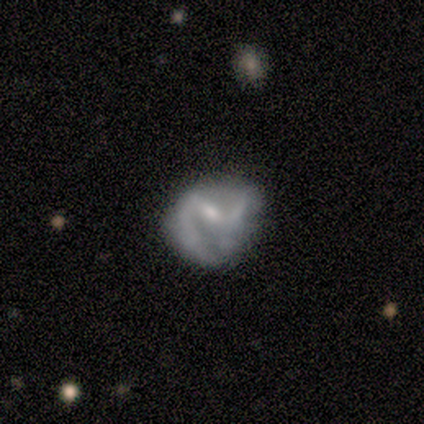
smooth-or-featured: smooth: 50% (tied) | featured or disk: 50% (tied) | star or artifact: 0%
  how-rounded: round: 50% (tied) | in between: 50% (tied) | cigar-shaped: 0%
  merging: none: 50% | minor disturbance: 25% | merger: 25% | major disturbance: 0%